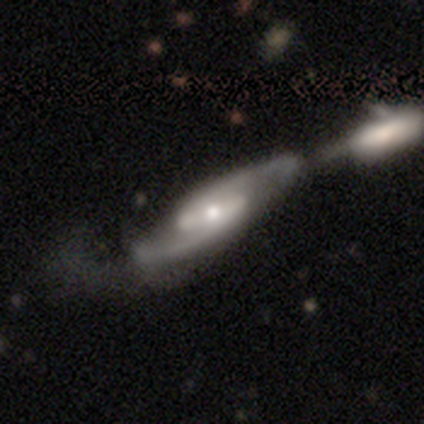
Q: Smooth or featured?
A: featured or disk (100%)
Q: Edge-on disk?
A: yes (60%); runner-up: no (40%)
Q: Edge-on bulge?
A: rounded (100%)
Q: Merging?
A: merger (60%); runner-up: none (20%)